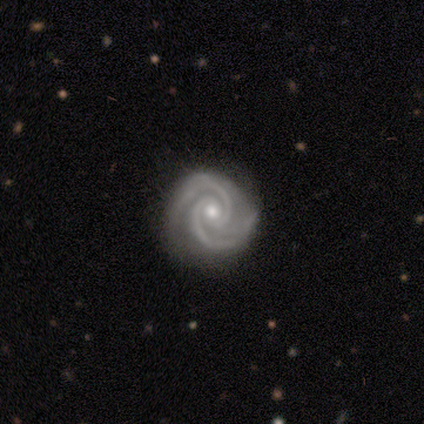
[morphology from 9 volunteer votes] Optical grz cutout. It shows a featured or disk galaxy (100%) with no bar (75%), 2 (88%) tight (75%) spiral arms (100%) and a small central bulge (75%). Merging: none (89%).